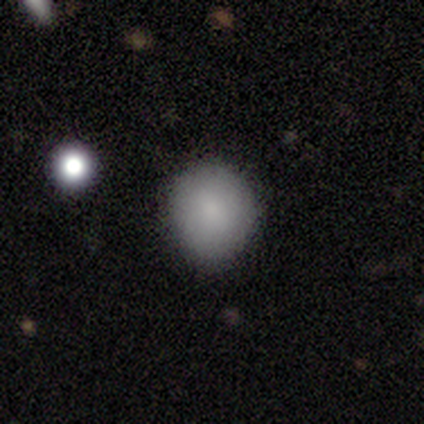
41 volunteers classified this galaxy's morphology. type=smooth (85%); roundness=round (83%); merging=none (66%).